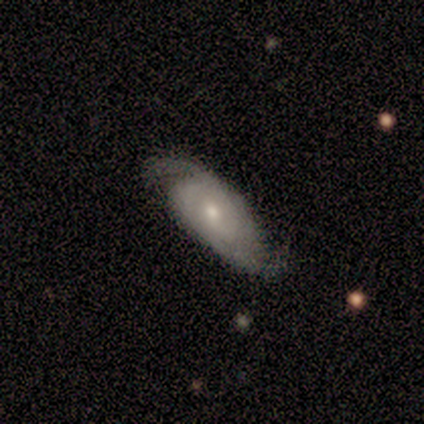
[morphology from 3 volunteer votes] type=featured or disk (67%); edge-on=no (100%); bar=weak (50%, tied with no); spiral arms=yes (100%); winding=tight (50%, tied with loose); arm count=1 (50%, tied with 2); bulge=small (100%); merging=none (67%).